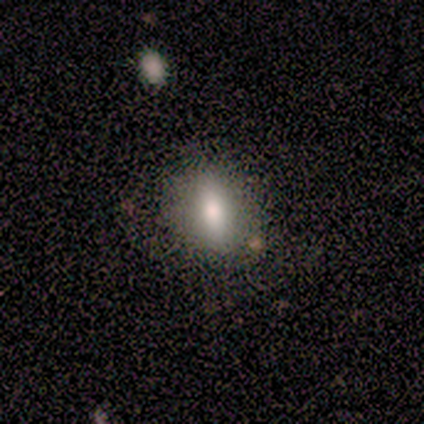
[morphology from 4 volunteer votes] smooth-or-featured: smooth: 50% | featured or disk: 25% | star or artifact: 25%
  how-rounded: in between: 50% (tied) | cigar-shaped: 50% (tied) | round: 0%
  merging: none: 100% | minor disturbance: 0% | major disturbance: 0% | merger: 0%